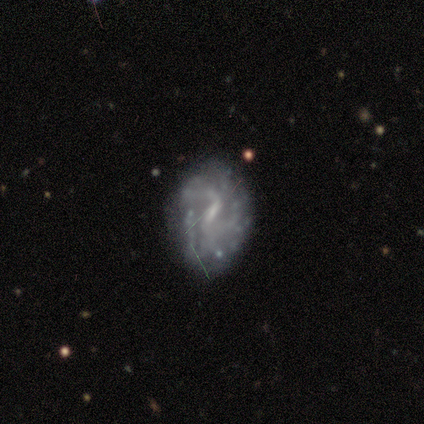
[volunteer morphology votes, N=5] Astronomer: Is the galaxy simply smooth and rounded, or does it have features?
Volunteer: featured or disk — 80%.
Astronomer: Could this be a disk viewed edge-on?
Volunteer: no — 100%.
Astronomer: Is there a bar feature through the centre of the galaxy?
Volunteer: weak — 75%.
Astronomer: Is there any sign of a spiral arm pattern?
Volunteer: yes — 50%, tied with no at 50%.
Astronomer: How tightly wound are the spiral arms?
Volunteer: loose — 100%.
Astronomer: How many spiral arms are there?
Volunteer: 2 — 100%.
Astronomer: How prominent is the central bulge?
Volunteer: small — 50%, tied with none at 50%.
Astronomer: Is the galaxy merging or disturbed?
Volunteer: none — 40%, tied with major disturbance at 40%.